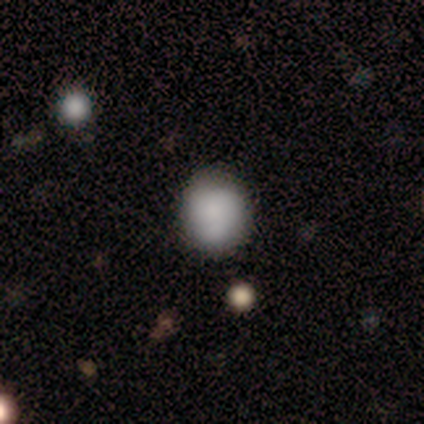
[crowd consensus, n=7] Overall: smooth (100%). How rounded: round (100%). Merging: none (57%; minor disturbance 43%).